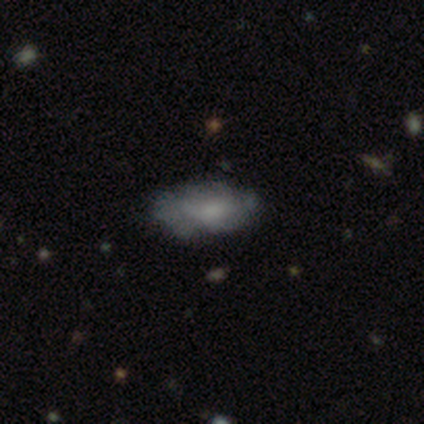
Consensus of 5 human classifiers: Overall: smooth (100%). How rounded: in between (100%). Merging: none (80%).